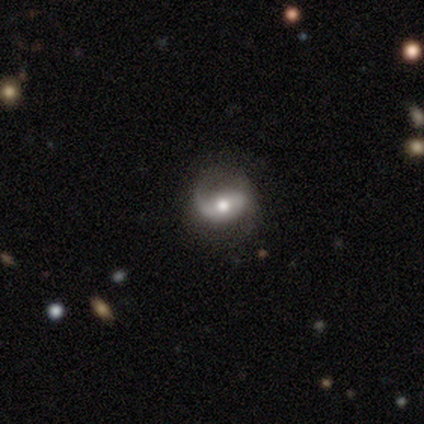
smooth-or-featured: featured or disk: 100% | smooth: 0% | star or artifact: 0%
  disk-edge-on: no: 100% | yes: 0%
    bar: weak: 67% | no: 33% | strong: 0%
    has-spiral-arms: yes: 100% | no: 0%
      spiral-winding: loose: 67% | medium: 33% | tight: 0%
      spiral-arm-count: 2: 67% | 1: 33% | 3: 0% | 4: 0% | more than 4: 0% | can't tell: 0%
    bulge-size: moderate: 100% | dominant: 0% | large: 0% | small: 0% | none: 0%
  merging: none: 33% (tied) | minor disturbance: 33% (tied) | major disturbance: 33% (tied) | merger: 0%